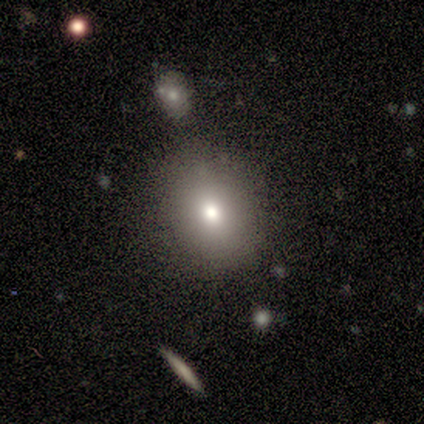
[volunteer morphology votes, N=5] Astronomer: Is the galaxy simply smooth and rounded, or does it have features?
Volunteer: smooth — 80%.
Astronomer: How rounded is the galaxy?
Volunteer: round — 75%.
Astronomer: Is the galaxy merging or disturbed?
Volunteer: none — 100%.